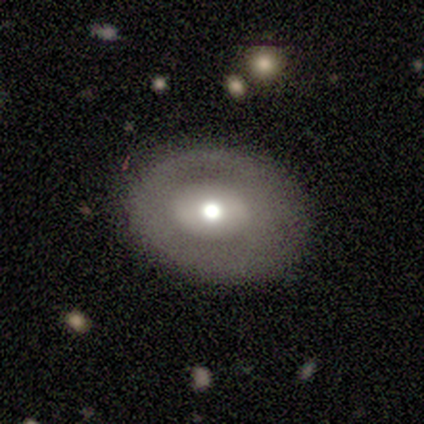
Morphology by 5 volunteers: Smooth or featured? featured or disk (100%)
Edge-on disk? no (100%)
Bar? no (80%)
Spiral arms? no (100%)
Bulge size? moderate (80%)
Merging? none (80%)